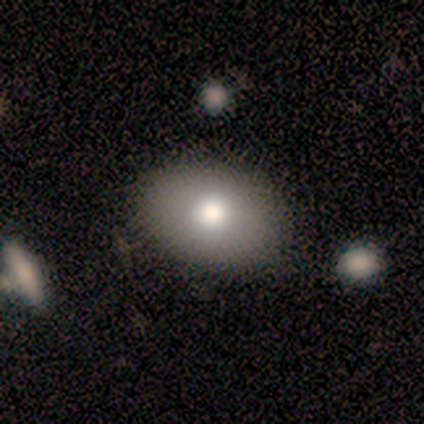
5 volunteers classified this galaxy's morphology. A smooth galaxy with no disk features (80%) that is in between round and cigar-shaped (75%).

Vote fractions:
- Smooth or featured? smooth: 80% / featured or disk: 20% / star or artifact: 0%
- How rounded? in between: 75% / round: 25% / cigar-shaped: 0%
- Merging? none: 80% / merger: 20% / minor disturbance: 0% / major disturbance: 0%